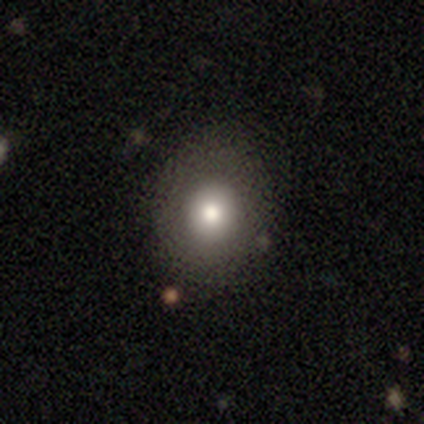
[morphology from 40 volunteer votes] This is clearly a smooth galaxy (90%). How rounded: possibly round (58%). Merging: likely none (67%).